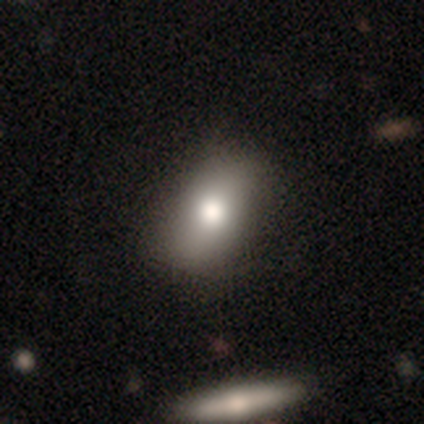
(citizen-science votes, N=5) This is likely a smooth galaxy (60%). How rounded: clearly in between (100%). Merging: clearly none (80%).